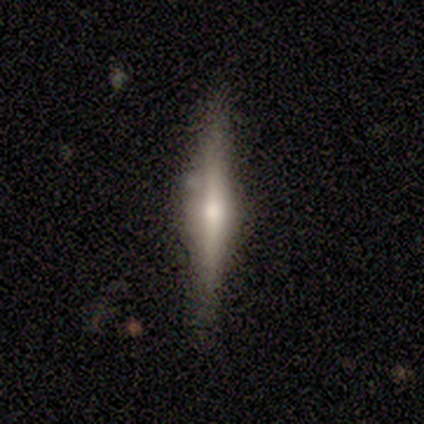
smooth_or_featured: featured or disk (p=0.66) [alt: smooth p=0.34]
disk_edge_on: yes (p=1.00)
edge_on_bulge: rounded (p=0.87) [alt: boxy p=0.09]
merging: none (p=0.89) [alt: minor disturbance p=0.11]